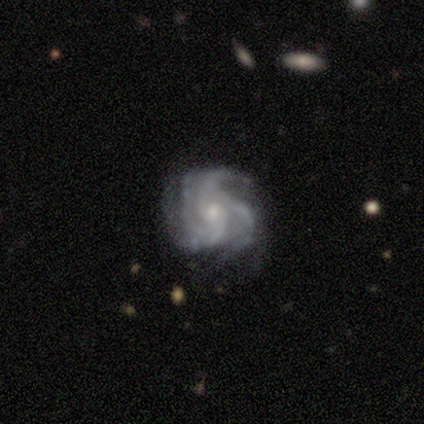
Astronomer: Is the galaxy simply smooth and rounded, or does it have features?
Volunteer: featured or disk — 100%.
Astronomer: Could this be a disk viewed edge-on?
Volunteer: no — 80%.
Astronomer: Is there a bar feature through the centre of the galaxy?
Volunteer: no — 75%.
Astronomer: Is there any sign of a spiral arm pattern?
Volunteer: yes — 100%.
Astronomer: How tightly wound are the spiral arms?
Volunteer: tight — 75%.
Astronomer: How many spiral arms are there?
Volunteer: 3 — 50%.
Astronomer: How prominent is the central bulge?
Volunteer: small — 50%.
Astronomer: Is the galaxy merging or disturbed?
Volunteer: none — 60% (runner-up: minor disturbance, 40%).